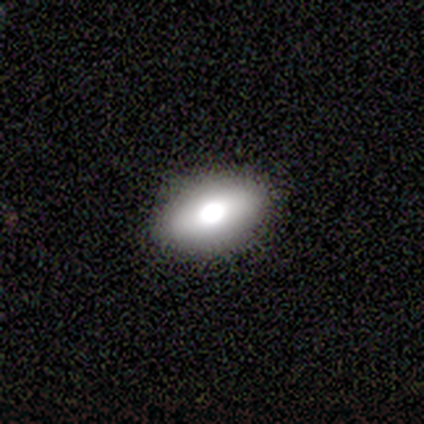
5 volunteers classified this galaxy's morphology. Smooth or featured? 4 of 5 (80%) said featured or disk. Edge-on disk? 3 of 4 (75%) said no. Bar? 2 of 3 (67%) said no. Spiral arms? 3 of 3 (100%) said no. Bulge size? 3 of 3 (100%) said large. Merging? 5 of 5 (100%) said none.